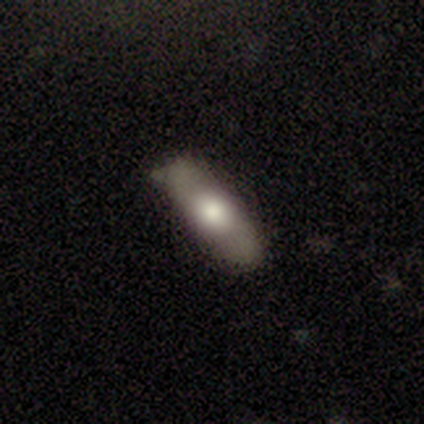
Morphology: type=smooth (60%); roundness=in between (67%); merging=none (67%).